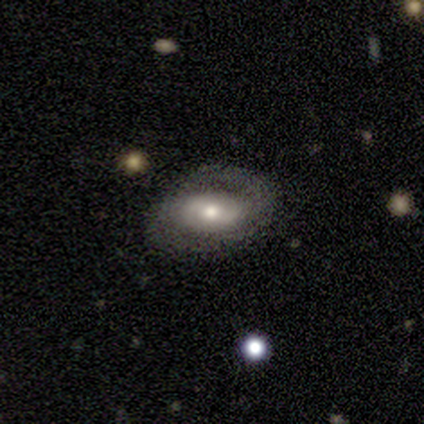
Q: Smooth or featured?
A: featured or disk (60%); runner-up: smooth (40%)
Q: Edge-on disk?
A: no (100%)
Q: Bar?
A: no (67%); runner-up: weak (33%)
Q: Spiral arms?
A: yes (100%)
Q: Spiral winding?
A: tight (67%); runner-up: loose (33%)
Q: Spiral arm count?
A: 2 (67%); runner-up: 1 (33%)
Q: Bulge size?
A: small (67%); runner-up: moderate (33%)
Q: Merging?
A: none (80%); runner-up: minor disturbance (20%)